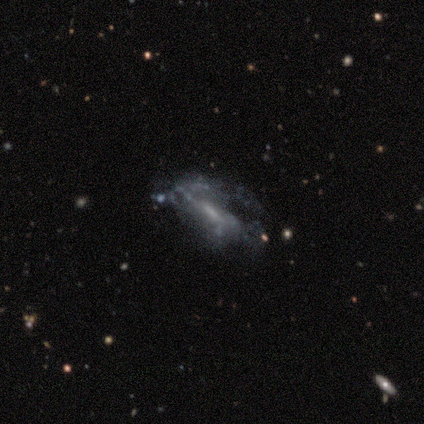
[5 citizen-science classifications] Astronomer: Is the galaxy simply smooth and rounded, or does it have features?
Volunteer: featured or disk — 60% (runner-up: smooth, 40%).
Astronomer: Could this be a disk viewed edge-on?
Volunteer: no — 100%.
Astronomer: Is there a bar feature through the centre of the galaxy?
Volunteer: no — 67%.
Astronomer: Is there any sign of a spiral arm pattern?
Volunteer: yes — 67%.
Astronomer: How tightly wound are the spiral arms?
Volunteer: medium — 50%, tied with loose at 50%.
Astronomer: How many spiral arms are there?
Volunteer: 3 — 50%, tied with can't tell at 50%.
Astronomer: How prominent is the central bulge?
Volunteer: small — 67%.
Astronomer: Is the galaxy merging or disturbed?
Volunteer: minor disturbance — 60%.